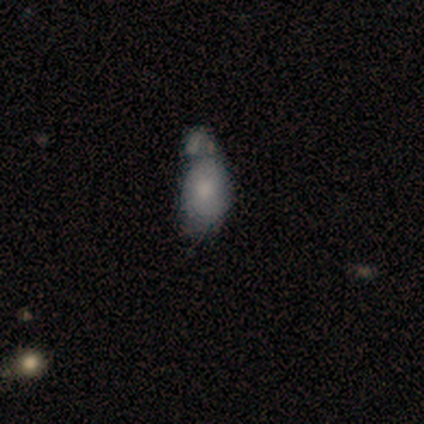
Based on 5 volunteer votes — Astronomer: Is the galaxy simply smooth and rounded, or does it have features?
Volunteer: smooth — 80%.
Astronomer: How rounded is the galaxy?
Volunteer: in between — 100%.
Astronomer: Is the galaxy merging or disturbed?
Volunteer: merger — 60%.